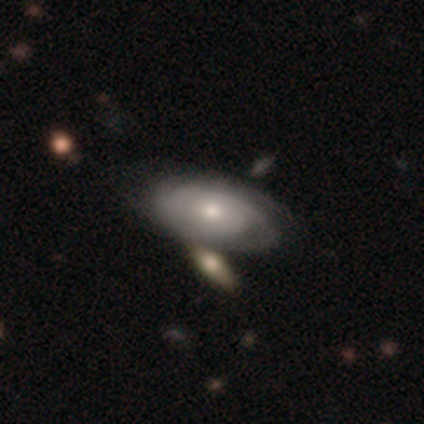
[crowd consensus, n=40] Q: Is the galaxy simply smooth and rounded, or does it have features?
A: featured or disk — 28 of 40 (70%).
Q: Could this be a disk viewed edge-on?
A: no — 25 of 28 (89%).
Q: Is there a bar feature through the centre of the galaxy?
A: no — 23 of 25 (92%).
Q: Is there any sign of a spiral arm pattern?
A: yes — 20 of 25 (80%).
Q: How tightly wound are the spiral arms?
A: tight — 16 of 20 (80%).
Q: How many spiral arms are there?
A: can't tell — 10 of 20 (50%).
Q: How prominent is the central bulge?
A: moderate — 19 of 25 (76%).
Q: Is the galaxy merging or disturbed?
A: none — 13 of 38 (34%, tied with merger).